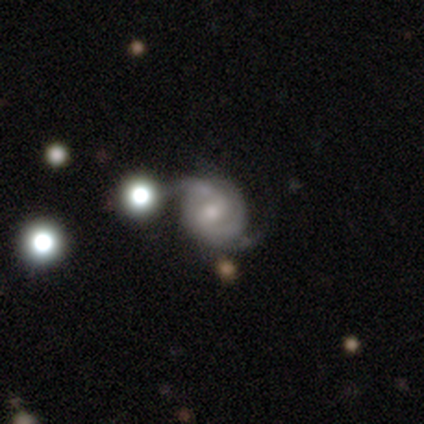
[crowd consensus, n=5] Overall: featured or disk (80%). Edge-on disk: no (100%). Bar: weak (75%). Spiral arms: yes (100%). Spiral arm count: 2 (50%, tied with 3). Spiral winding: medium (75%). Bulge size: moderate (75%). Merging: none (100%).